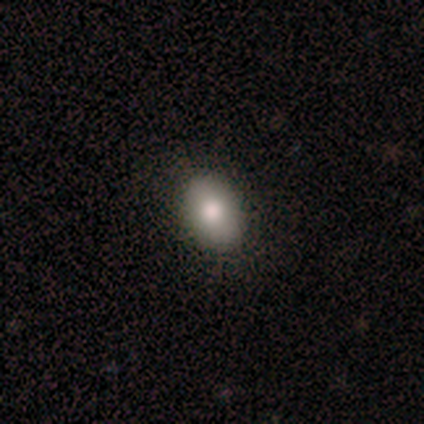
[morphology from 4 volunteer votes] Q: Smooth or featured?
A: smooth (100%)
Q: How rounded?
A: in between (100%)
Q: Merging?
A: none (75%); runner-up: minor disturbance (25%)